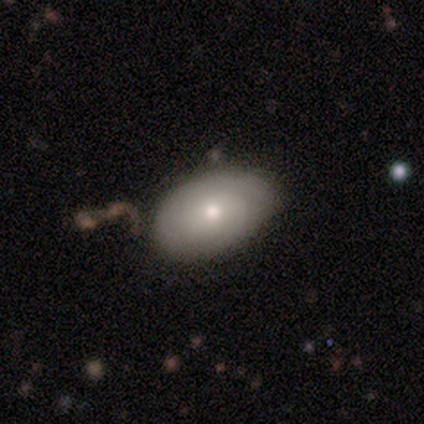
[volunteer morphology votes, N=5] Q: Smooth or featured?
A: featured or disk (80%); runner-up: star or artifact (20%)
Q: Edge-on disk?
A: no (100%)
Q: Bar?
A: no (75%); runner-up: strong (25%)
Q: Spiral arms?
A: yes (100%)
Q: Spiral winding?
A: tight (75%); runner-up: medium (25%)
Q: Spiral arm count?
A: 2 (50%); runner-up: 1 (25%)
Q: Bulge size?
A: moderate (50%); tied with: small (50%)
Q: Merging?
A: none (50%); tied with: merger (50%)